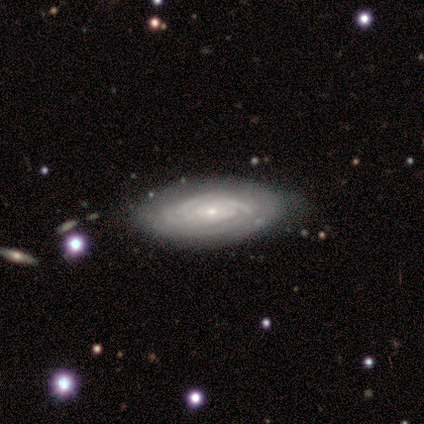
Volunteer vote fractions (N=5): A featured or disk galaxy (100%) with no bar (100%), tight (100%) spiral arms (75%) and a small central bulge (100%). Merging: none (60%).